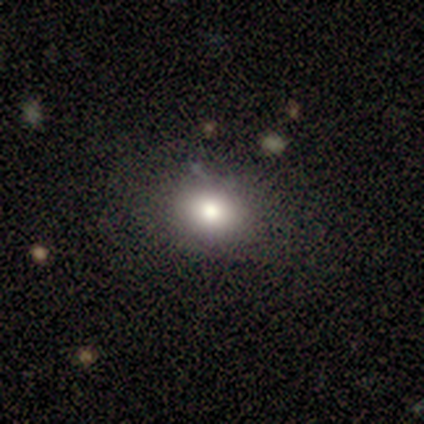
Smooth or featured: smooth — 77% (featured or disk — 15%)
How rounded: in between — 60% (round — 40%)
Merging: none — 72% (minor disturbance — 19%)